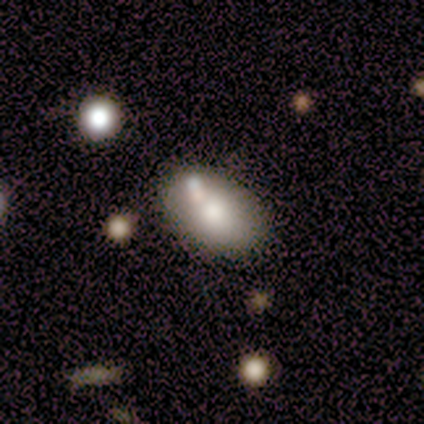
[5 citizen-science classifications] smooth_or_featured: smooth (p=0.60) [alt: featured or disk p=0.40]
how_rounded: in between (p=1.00)
merging: none (p=0.40) [tied with: minor disturbance p=0.40]